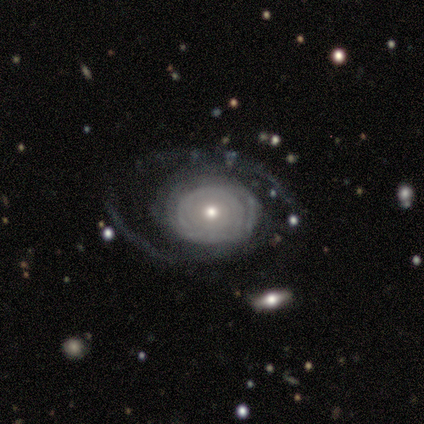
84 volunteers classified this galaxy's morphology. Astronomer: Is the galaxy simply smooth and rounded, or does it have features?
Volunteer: featured or disk — 87%.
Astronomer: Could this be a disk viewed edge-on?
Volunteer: no — 100%.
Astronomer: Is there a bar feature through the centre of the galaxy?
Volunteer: no — 93%.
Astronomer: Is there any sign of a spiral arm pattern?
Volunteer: yes — 52% (runner-up: no, 48%).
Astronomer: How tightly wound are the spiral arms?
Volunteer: tight — 76%.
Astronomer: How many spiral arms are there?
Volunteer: can't tell — 55%.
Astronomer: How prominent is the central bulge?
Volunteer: moderate — 55% (runner-up: small, 40%).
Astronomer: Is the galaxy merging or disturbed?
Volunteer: none — 52% (runner-up: major disturbance, 28%).